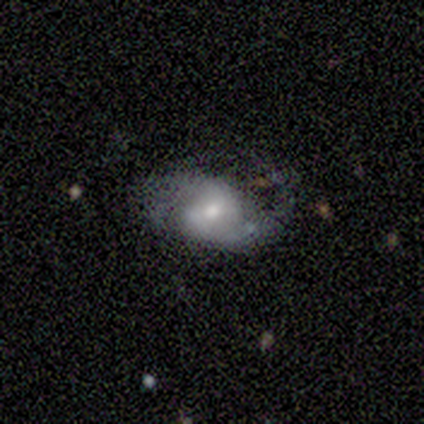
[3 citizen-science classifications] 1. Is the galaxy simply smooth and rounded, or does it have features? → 100% featured or disk, 0% smooth, 0% star or artifact.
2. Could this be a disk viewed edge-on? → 100% no, 0% yes.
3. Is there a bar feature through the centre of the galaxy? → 67% no, 33% weak, 0% strong.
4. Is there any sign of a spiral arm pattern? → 67% yes, 33% no.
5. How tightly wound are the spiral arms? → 50% tight (tied), 50% loose (tied), 0% medium.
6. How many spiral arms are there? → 100% 2, 0% 1, 0% 3, 0% 4, 0% more than 4, 0% can't tell.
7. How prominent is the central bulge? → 67% small, 33% moderate, 0% dominant, 0% large, 0% none.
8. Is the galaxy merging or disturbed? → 67% minor disturbance, 33% none, 0% major disturbance, 0% merger.